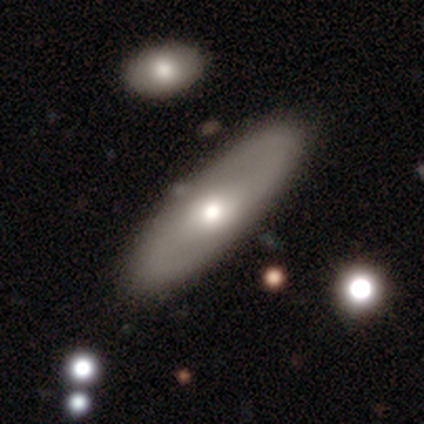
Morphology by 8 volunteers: Smooth or featured? 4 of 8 (50%, tied with featured or disk) said smooth. How rounded? 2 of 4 (50%, tied with cigar-shaped) said in between. Merging? 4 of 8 (50%) said none.